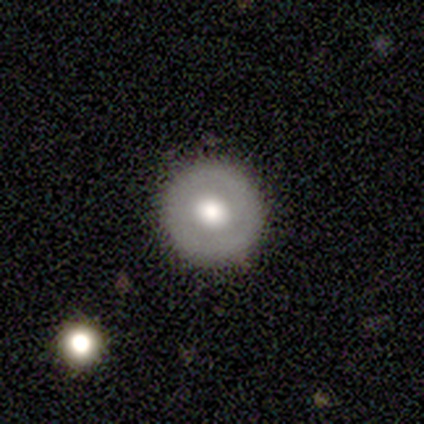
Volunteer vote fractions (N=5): Smooth or featured?
  - smooth: 60% *
  - featured or disk: 40%
  - star or artifact: 0%
How rounded?
  - round: 100% *
  - in between: 0%
  - cigar-shaped: 0%
Merging?
  - none: 100% *
  - minor disturbance: 0%
  - major disturbance: 0%
  - merger: 0%